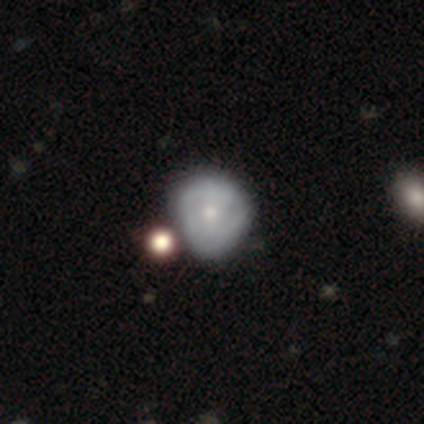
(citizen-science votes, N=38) This appears to be a featured or disk galaxy (55%) with no bar (95%), tight (70%) spiral arms (50%, tied with no) and a moderate central bulge (45%, tied with small). Merging: none (47%).